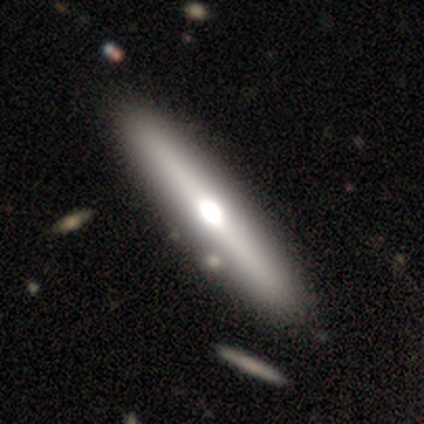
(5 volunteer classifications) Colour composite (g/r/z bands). It shows a featured or disk galaxy (80%) viewed edge-on (100%) with a rounded central bulge (75%). Merging: none (100%).